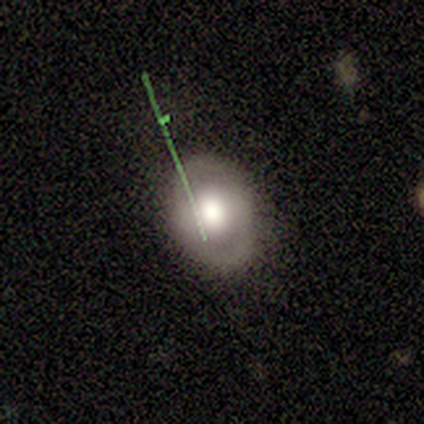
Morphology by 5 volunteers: smooth 60%, featured or disk 40%, star or artifact 0%. Down the decision tree: how rounded — in between (67%); merging — none (80%).